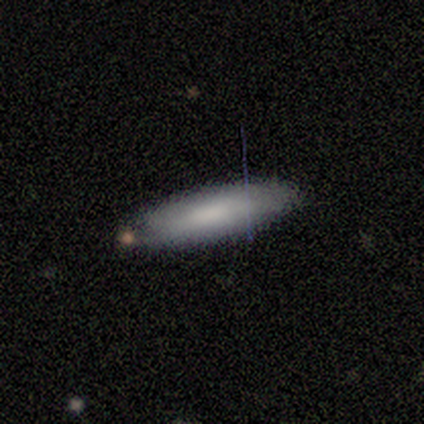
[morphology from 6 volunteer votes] Smooth or featured? smooth (67%)
How rounded? cigar-shaped (75%)
Merging? none (100%)